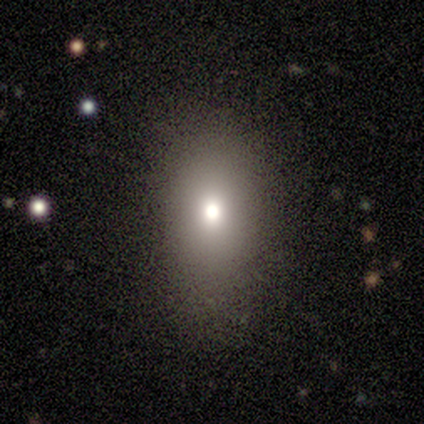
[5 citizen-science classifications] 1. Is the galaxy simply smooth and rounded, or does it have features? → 80% smooth, 20% star or artifact, 0% featured or disk.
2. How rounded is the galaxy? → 100% in between, 0% round, 0% cigar-shaped.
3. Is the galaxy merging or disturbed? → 100% none, 0% minor disturbance, 0% major disturbance, 0% merger.